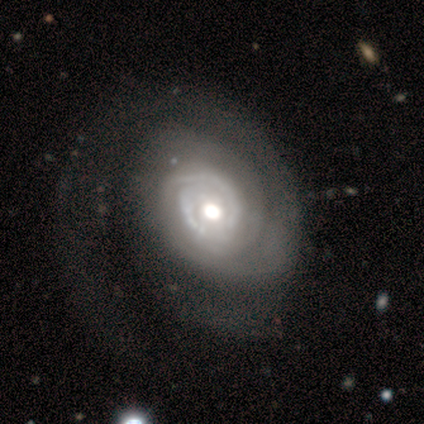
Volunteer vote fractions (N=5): smooth-or-featured: featured or disk: 100% | smooth: 0% | star or artifact: 0%
  disk-edge-on: no: 100% | yes: 0%
    bar: no: 100% | strong: 0% | weak: 0%
    has-spiral-arms: yes: 100% | no: 0%
      spiral-winding: tight: 80% | medium: 20% | loose: 0%
      spiral-arm-count: 2: 40% (tied) | can't tell: 40% (tied) | more than 4: 20% | 1: 0% | 3: 0% | 4: 0%
    bulge-size: moderate: 100% | dominant: 0% | large: 0% | small: 0% | none: 0%
  merging: major disturbance: 60% | none: 40% | minor disturbance: 0% | merger: 0%